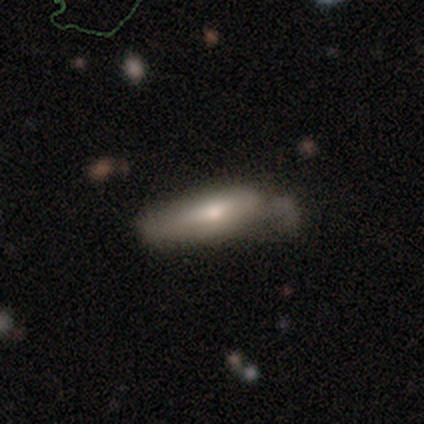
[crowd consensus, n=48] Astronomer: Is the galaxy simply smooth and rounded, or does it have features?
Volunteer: smooth — 69%.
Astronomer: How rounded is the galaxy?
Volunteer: cigar-shaped — 64%.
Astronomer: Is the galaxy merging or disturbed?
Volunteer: none — 41% (runner-up: minor disturbance, 33%).